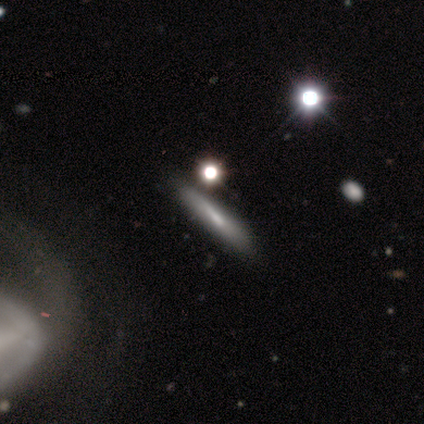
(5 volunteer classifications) smooth_or_featured: featured or disk (p=0.40) [tied with: star or artifact p=0.40]
disk_edge_on: yes (p=1.00)
edge_on_bulge: none (p=1.00)
merging: none (p=0.67) [alt: minor disturbance p=0.33]